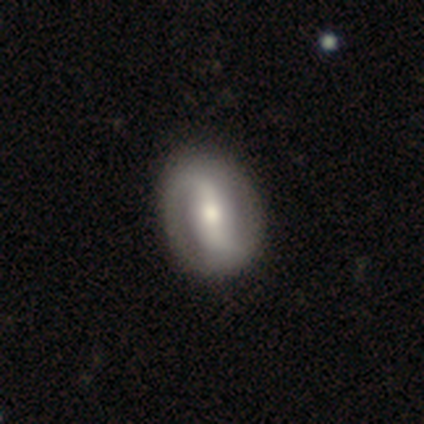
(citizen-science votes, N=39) A featured or disk galaxy (77%) with a strong bar (63%), 2 (92%) loose (56%) spiral arms (83%) and a moderate central bulge (67%).

Vote fractions:
- Smooth or featured? featured or disk: 77% / smooth: 21% / star or artifact: 3%
- Edge-on disk? no: 100% / yes: 0%
- Bar? strong: 63% / weak: 27% / no: 10%
- Spiral arms? yes: 83% / no: 17%
- Spiral winding? loose: 56% / tight: 24% / medium: 20%
- Spiral arm count? 2: 92% / 1: 4% / 4: 4% / 3: 0% / more than 4: 0% / can't tell: 0%
- Bulge size? moderate: 67% / small: 23% / large: 7% / dominant: 3% / none: 0%
- Merging? none: 74% / minor disturbance: 11% / major disturbance: 3% / merger: 0%